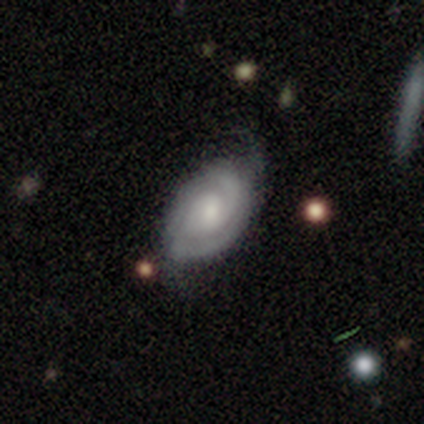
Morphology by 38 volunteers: Overall: featured or disk (74%). Edge-on disk: no (96%). Bar: no (67%; weak 33%). Spiral arms: yes (93%). Spiral arm count: 2 (60%; can't tell 32%). Spiral winding: tight (44%, tied with medium). Bulge size: small (56%; moderate 22%). Merging: none (60%; minor disturbance 31%).